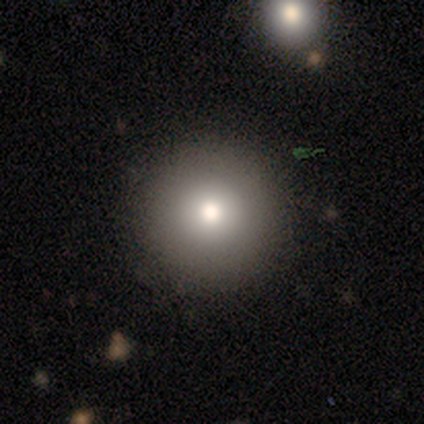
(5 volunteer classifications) Smooth or featured: smooth — 100%
How rounded: round — 100%
Merging: none — 100%